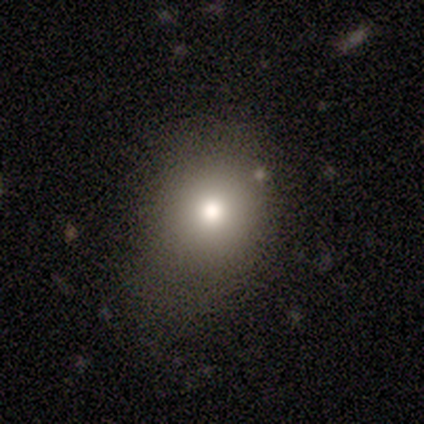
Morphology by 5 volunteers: smooth 60%, featured or disk 40%, star or artifact 0%. Down the decision tree: how rounded — round (100%); merging — none (80%).